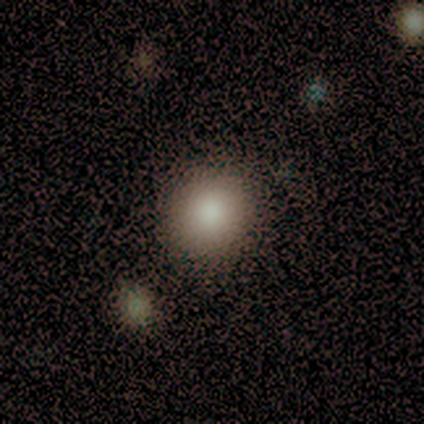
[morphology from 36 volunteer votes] smooth_or_featured: smooth (p=0.83) [alt: star or artifact p=0.11]
how_rounded: round (p=0.90) [alt: in between p=0.10]
merging: none (p=0.88) [alt: major disturbance p=0.06]